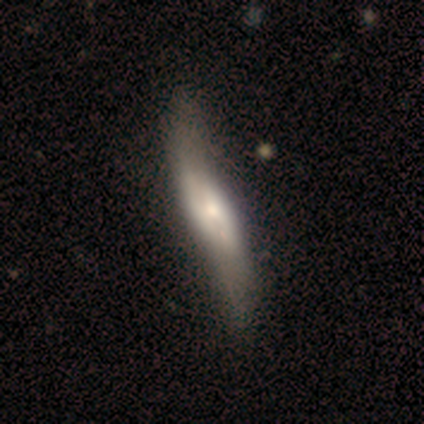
smooth_or_featured: featured or disk (p=0.71) [alt: smooth p=0.29]
disk_edge_on: yes (p=0.59) [alt: no p=0.41]
edge_on_bulge: rounded (p=0.75) [alt: none p=0.19]
merging: none (p=0.37) [alt: minor disturbance p=0.21]